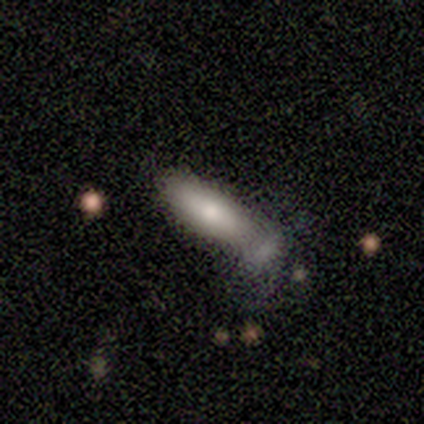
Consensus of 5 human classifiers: This appears to be a smooth galaxy with no disk features (100%) that is cigar-shaped (80%). Merging: minor disturbance (40%).